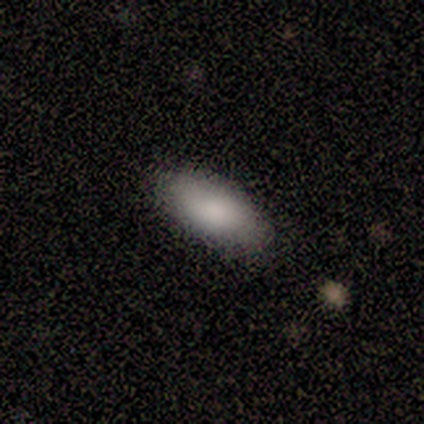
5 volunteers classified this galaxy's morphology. Smooth or featured?
  - smooth: 60% *
  - featured or disk: 40%
  - star or artifact: 0%
How rounded?
  - in between: 100% *
  - round: 0%
  - cigar-shaped: 0%
Merging?
  - none: 100% *
  - minor disturbance: 0%
  - major disturbance: 0%
  - merger: 0%